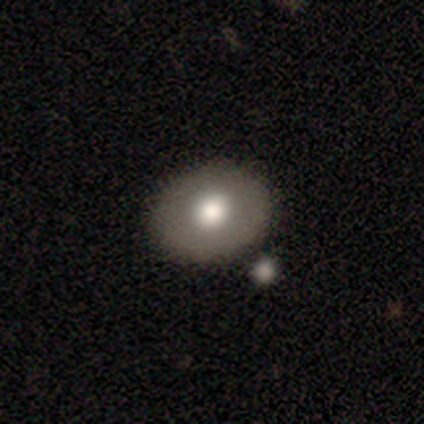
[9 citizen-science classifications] Morphology: type=smooth (89%); roundness=round (75%); merging=none (67%).